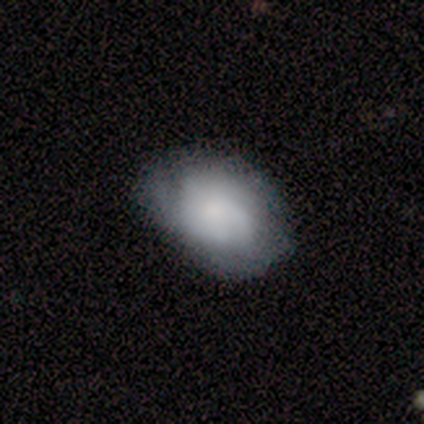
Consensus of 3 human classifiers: smooth_or_featured: featured or disk (p=1.00)
disk_edge_on: no (p=1.00)
bar: no (p=1.00)
has_spiral_arms: no (p=0.67) [alt: yes p=0.33]
bulge_size: small (p=0.67) [alt: large p=0.33]
merging: minor disturbance (p=0.67) [alt: none p=0.33]